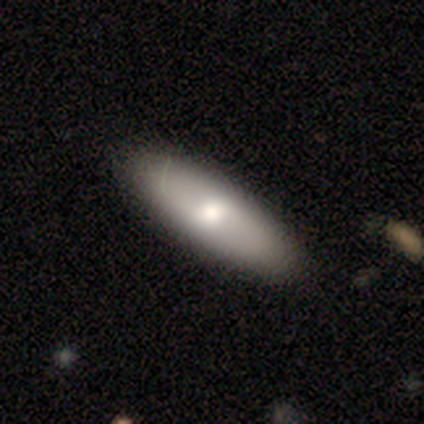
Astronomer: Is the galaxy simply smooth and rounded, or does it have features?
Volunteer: smooth — 62%.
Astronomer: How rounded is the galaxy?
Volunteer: cigar-shaped — 60% (runner-up: in between, 40%).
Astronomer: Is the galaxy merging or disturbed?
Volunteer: none — 68%.